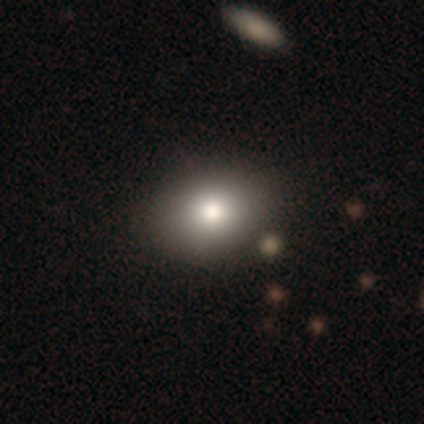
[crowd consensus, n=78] Smooth or featured?
  - smooth: 83% *
  - star or artifact: 9%
  - featured or disk: 8%
How rounded?
  - in between: 60% *
  - round: 38%
  - cigar-shaped: 2%
Merging?
  - none: 44% *
  - merger: 7%
  - minor disturbance: 3%
  - major disturbance: 1%